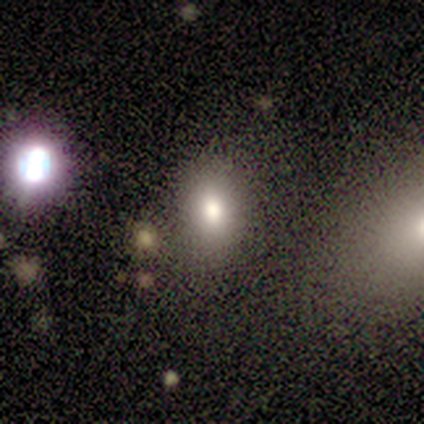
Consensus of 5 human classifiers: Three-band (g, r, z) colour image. It shows a smooth galaxy with no disk features (80%) that is in between round and cigar-shaped (75%). Merging: none (75%).